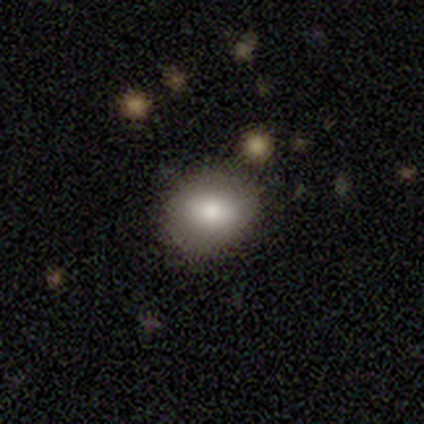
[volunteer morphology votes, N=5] Q: Smooth or featured?
A: smooth (40%); tied with: featured or disk (40%)
Q: How rounded?
A: round (50%); tied with: in between (50%)
Q: Merging?
A: none (100%)